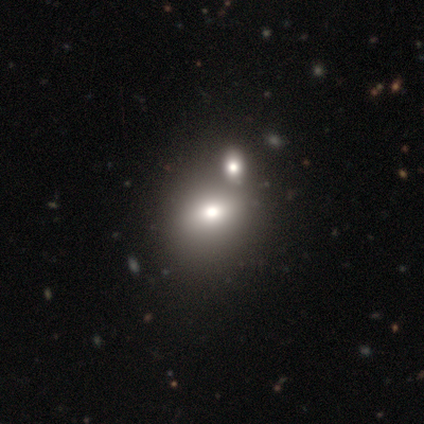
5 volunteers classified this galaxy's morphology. This appears to be a featured or disk galaxy (60%) with no bar (67%), no spiral arms (100%) and a moderate central bulge (100%). Merging: none (80%).